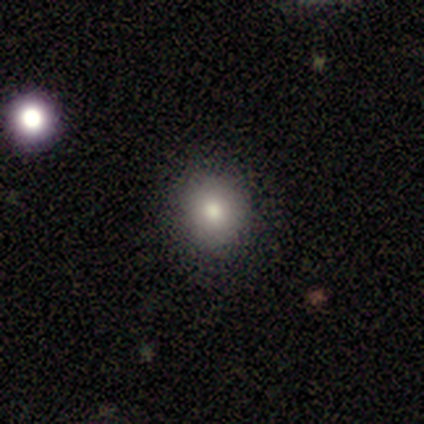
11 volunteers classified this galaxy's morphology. smooth-or-featured: smooth: 82% | featured or disk: 18% | star or artifact: 0%
  how-rounded: round: 89% | in between: 11% | cigar-shaped: 0%
  merging: none: 73% | minor disturbance: 27% | major disturbance: 0% | merger: 0%